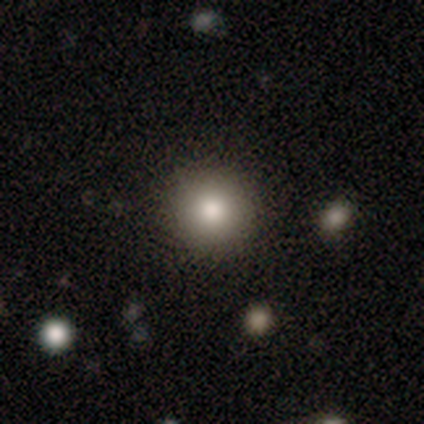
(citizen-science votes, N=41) Smooth or featured? 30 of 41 (73%) said smooth. How rounded? 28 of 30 (93%) said round. Merging? 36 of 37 (97%) said none.